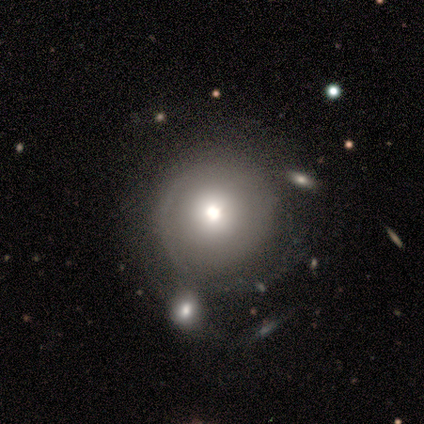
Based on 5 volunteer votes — Smooth or featured? smooth (60%)
How rounded? round (100%)
Merging? none (50%, tied with minor disturbance)